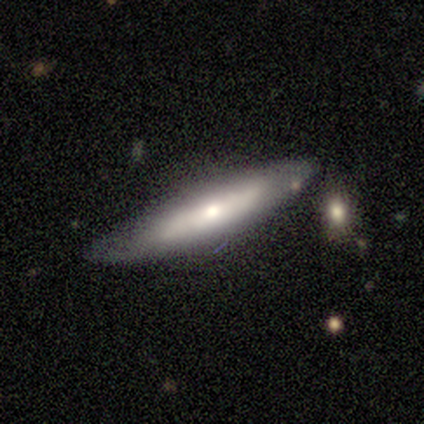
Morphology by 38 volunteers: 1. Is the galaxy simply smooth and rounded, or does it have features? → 55% featured or disk, 42% smooth, 3% star or artifact.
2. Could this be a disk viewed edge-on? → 67% yes, 33% no.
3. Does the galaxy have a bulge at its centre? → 71% rounded, 21% none, 7% boxy.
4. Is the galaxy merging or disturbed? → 73% none, 22% minor disturbance, 3% major disturbance, 3% merger.